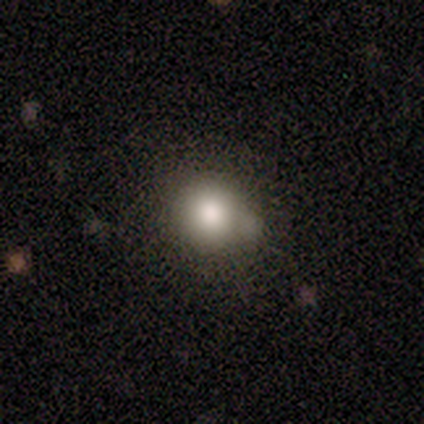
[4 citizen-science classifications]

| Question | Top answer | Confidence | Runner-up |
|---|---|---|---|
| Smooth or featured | smooth | 75% | featured or disk (25%) |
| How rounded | round | 100% | — |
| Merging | none | 50% | tied: minor disturbance (50%) |